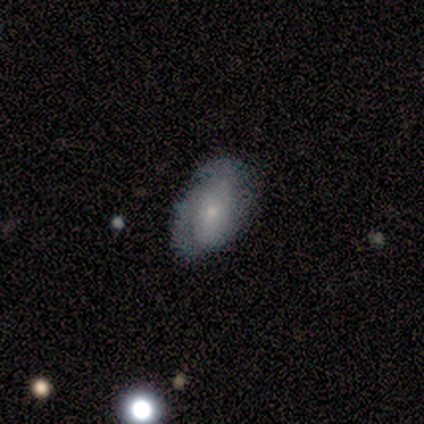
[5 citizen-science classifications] smooth-or-featured: featured or disk: 60% | smooth: 20% | star or artifact: 20%
  disk-edge-on: no: 100% | yes: 0%
    bar: no: 100% | strong: 0% | weak: 0%
    has-spiral-arms: yes: 100% | no: 0%
      spiral-winding: tight: 67% | medium: 33% | loose: 0%
      spiral-arm-count: 1: 100% | 2: 0% | 3: 0% | 4: 0% | more than 4: 0% | can't tell: 0%
    bulge-size: small: 67% | moderate: 33% | dominant: 0% | large: 0% | none: 0%
  merging: none: 100% | minor disturbance: 0% | major disturbance: 0% | merger: 0%